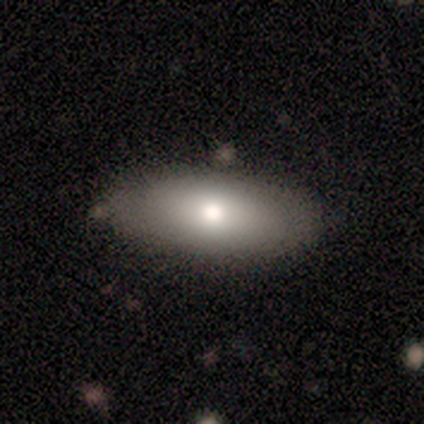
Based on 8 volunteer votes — smooth_or_featured: smooth (p=0.75) [alt: featured or disk p=0.25]
how_rounded: in between (p=0.83) [alt: cigar-shaped p=0.17]
merging: none (p=0.75) [alt: minor disturbance p=0.12]